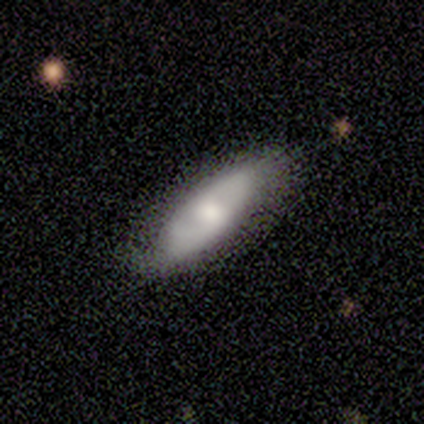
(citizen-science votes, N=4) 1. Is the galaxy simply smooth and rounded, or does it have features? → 50% smooth (tied), 50% featured or disk (tied), 0% star or artifact.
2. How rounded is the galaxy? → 100% in between, 0% round, 0% cigar-shaped.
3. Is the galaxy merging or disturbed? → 100% none, 0% minor disturbance, 0% major disturbance, 0% merger.